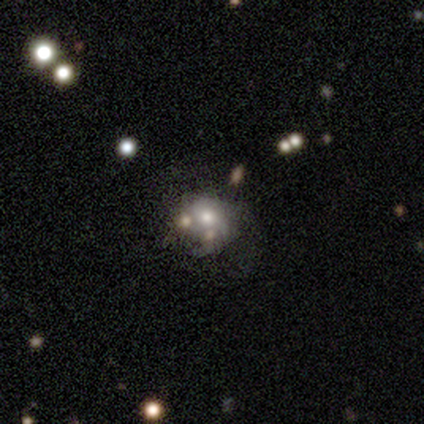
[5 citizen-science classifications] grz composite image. It shows a smooth galaxy with no disk features (60%) that is round (67%). Merging: merger (67%).